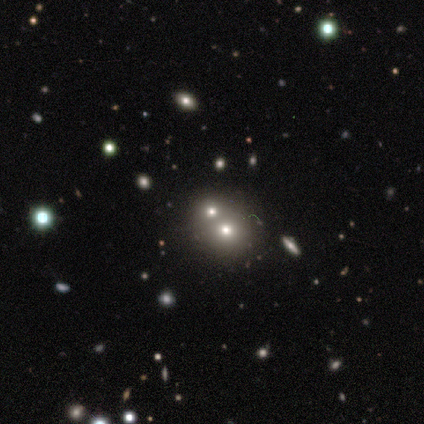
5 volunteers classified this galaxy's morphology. type=smooth (80%); roundness=round (100%); merging=merger (75%).